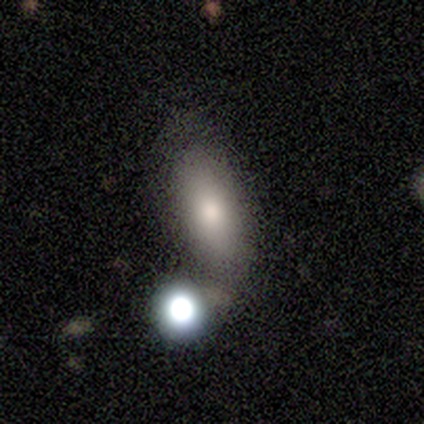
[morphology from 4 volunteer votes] This is clearly a smooth galaxy (100%). How rounded: possibly in between (50%, tied with cigar-shaped). Merging: possibly none (50%, tied with merger).